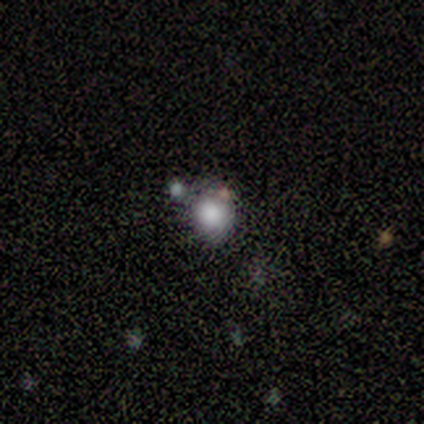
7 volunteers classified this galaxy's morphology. Smooth or featured? 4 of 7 (57%) said smooth. How rounded? 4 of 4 (100%) said round. Merging? 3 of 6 (50%) said merger.